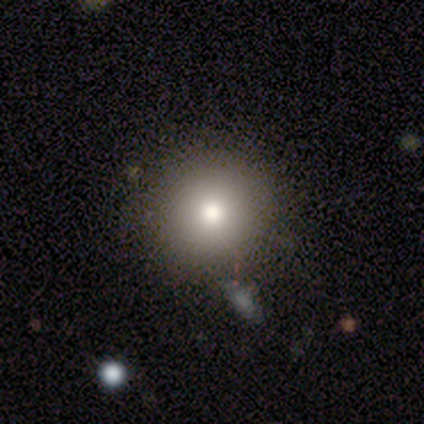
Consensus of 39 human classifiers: smooth_or_featured: smooth (p=0.85) [alt: featured or disk p=0.10]
how_rounded: round (p=0.88) [alt: in between p=0.12]
merging: none (p=0.92) [alt: minor disturbance p=0.05]